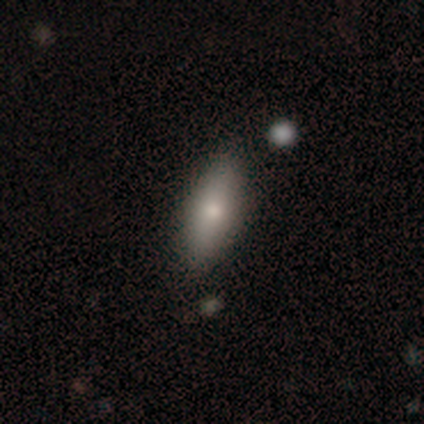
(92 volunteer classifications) A smooth galaxy with no disk features (75%) that is in between round and cigar-shaped (71%). Merging: none (88%).